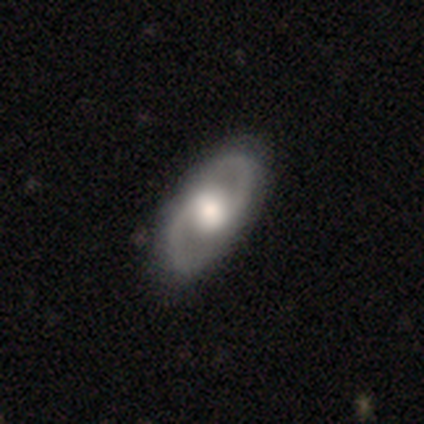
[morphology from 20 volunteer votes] Smooth or featured: featured or disk — 75% (smooth — 15%)
Edge-on disk: no — 100%
Bar: no — 73% (weak — 27%)
Spiral arms: yes — 80% (no — 20%)
Spiral winding: medium — 58% (tight — 33%)
Spiral arm count: 2 — 100%
Bulge size: moderate — 60% (large — 27%)
Merging: none — 72% (minor disturbance — 22%)